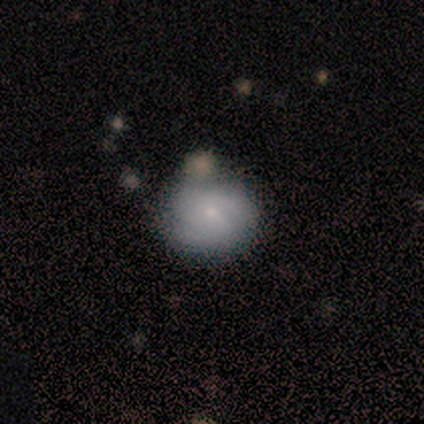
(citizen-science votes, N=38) smooth 53%, featured or disk 42%, star or artifact 5%. Down the decision tree: how rounded — round (95%); merging — none (81%).